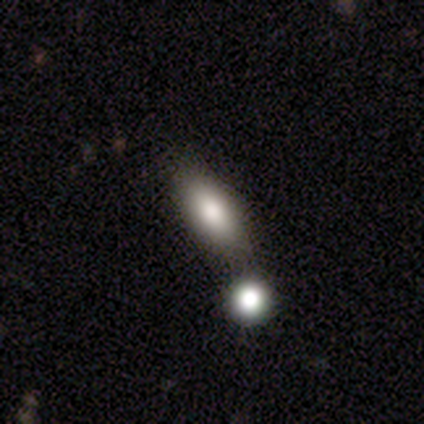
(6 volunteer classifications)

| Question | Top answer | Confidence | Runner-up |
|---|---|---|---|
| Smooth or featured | smooth | 100% | — |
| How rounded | in between | 83% | cigar-shaped (17%) |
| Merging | none | 50% | tied: merger (50%) |